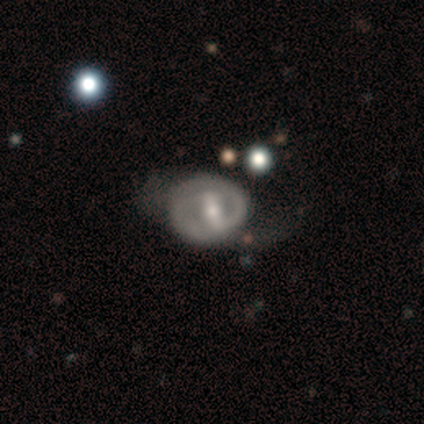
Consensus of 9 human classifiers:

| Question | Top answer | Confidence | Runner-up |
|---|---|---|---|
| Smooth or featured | featured or disk | 78% | smooth (22%) |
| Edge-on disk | no | 100% | — |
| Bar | strong | 43% | tied: weak (43%) |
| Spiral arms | yes | 71% | no (29%) |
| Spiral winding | tight | 60% | medium (20%) |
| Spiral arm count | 2 | 100% | — |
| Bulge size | moderate | 57% | small (29%) |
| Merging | none | 44% | major disturbance (33%) |